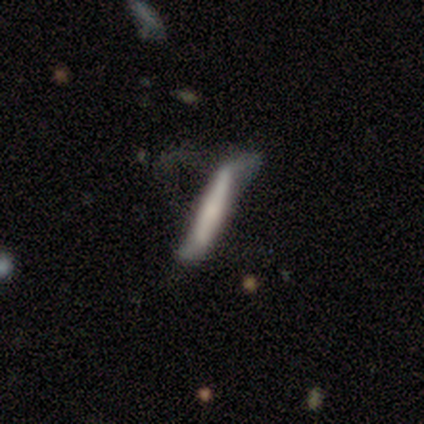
Smooth or featured? smooth (56%)
How rounded? cigar-shaped (100%)
Merging? major disturbance (38%)